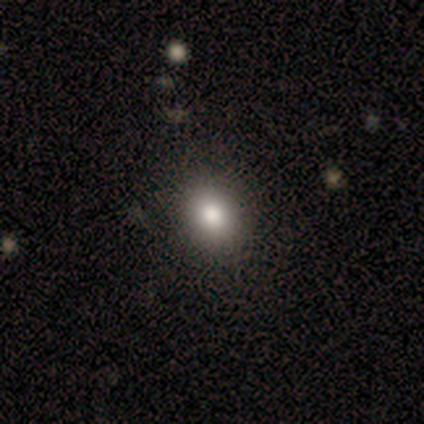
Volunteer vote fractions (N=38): smooth 74%, featured or disk 13%, star or artifact 13%. Down the decision tree: how rounded — round (61%); merging — none (91%).